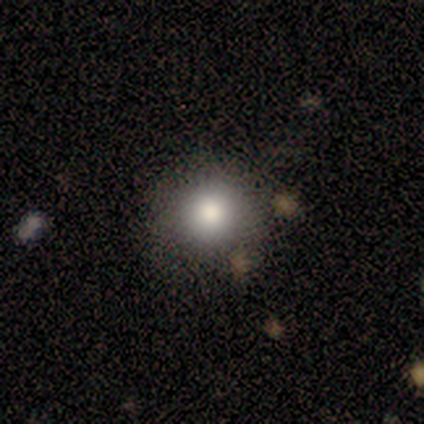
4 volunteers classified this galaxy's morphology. smooth 75%, featured or disk 25%, star or artifact 0%. Down the decision tree: how rounded — round (100%); merging — none (100%).